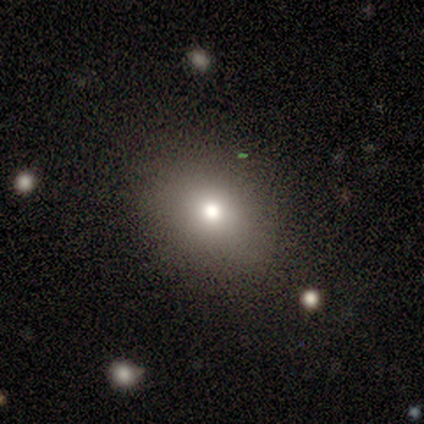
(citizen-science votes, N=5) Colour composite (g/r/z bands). It shows a smooth galaxy with no disk features (60%) that is round (100%). Merging: none (100%).